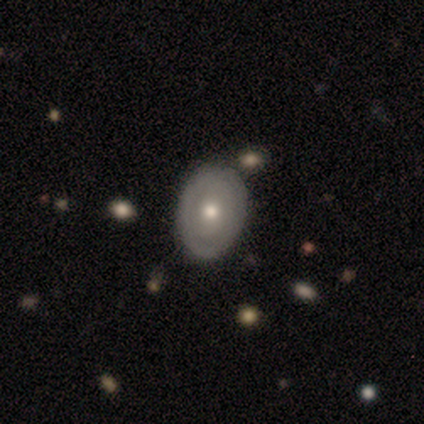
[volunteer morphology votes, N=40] Smooth or featured: smooth — 52% (featured or disk — 40%)
How rounded: in between — 81% (round — 19%)
Merging: none — 89% (minor disturbance — 11%)